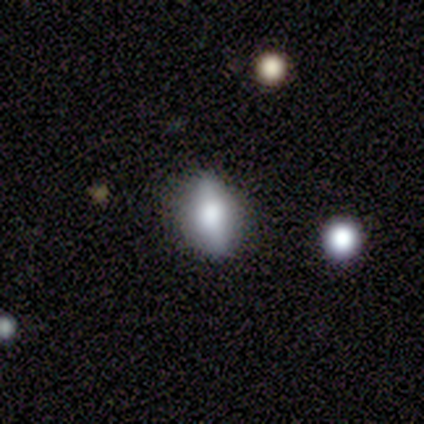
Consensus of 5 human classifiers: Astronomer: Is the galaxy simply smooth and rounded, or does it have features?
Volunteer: smooth — 40%, tied with featured or disk at 40%.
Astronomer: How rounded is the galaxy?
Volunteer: in between — 100%.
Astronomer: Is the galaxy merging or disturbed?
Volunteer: none — 100%.